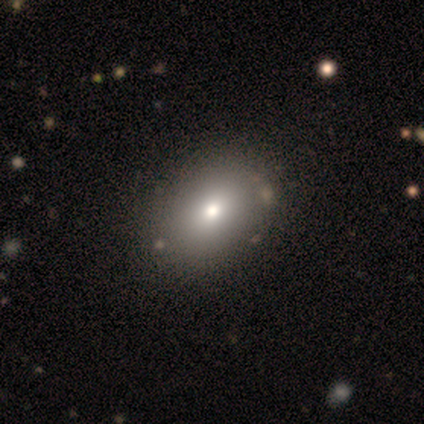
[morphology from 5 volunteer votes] smooth 60%, featured or disk 20%, star or artifact 20%. Down the decision tree: how rounded — in between (100%); merging — none (100%).